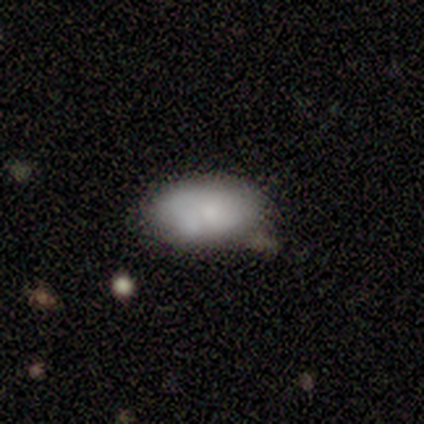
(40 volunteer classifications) Q: Smooth or featured?
A: smooth (82%); runner-up: featured or disk (12%)
Q: How rounded?
A: in between (94%); runner-up: round (3%)
Q: Merging?
A: none (45%); runner-up: minor disturbance (39%)